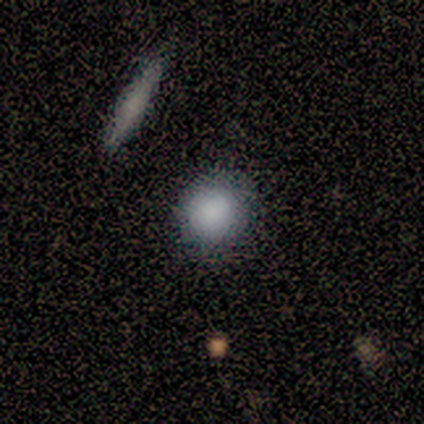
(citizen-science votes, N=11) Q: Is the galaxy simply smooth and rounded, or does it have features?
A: smooth — 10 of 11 (91%).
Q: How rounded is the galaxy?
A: round — 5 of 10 (50%, tied with in between).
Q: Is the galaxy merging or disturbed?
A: none — 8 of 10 (80%).